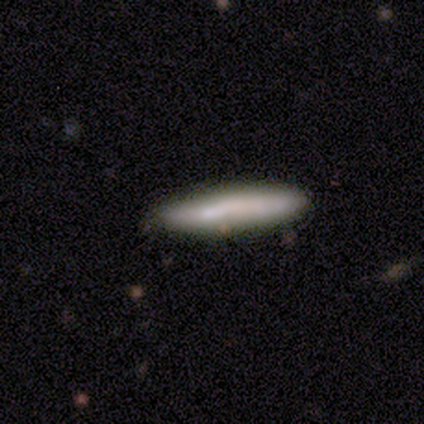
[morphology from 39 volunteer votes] A smooth galaxy with no disk features (69%) that is cigar-shaped (81%).

Vote fractions:
- Smooth or featured? smooth: 69% / featured or disk: 21% / star or artifact: 10%
- How rounded? cigar-shaped: 81% / in between: 19% / round: 0%
- Merging? none: 57% / minor disturbance: 29% / merger: 11% / major disturbance: 3%